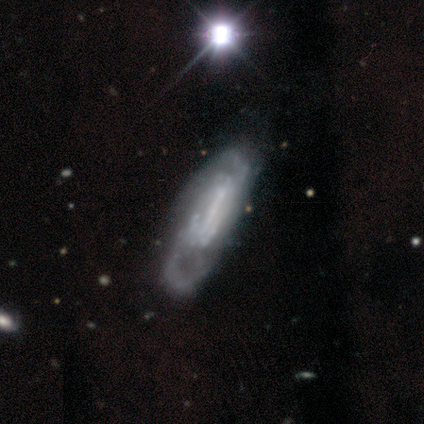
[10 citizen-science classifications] featured or disk 70%, smooth 20%, star or artifact 10%. Down the decision tree: edge-on disk — no (86%); bar — weak (50%); spiral arms — yes (67%); spiral arm count — 2 (75%); spiral winding — medium (50%); bulge size — none (83%); merging — none (56%).